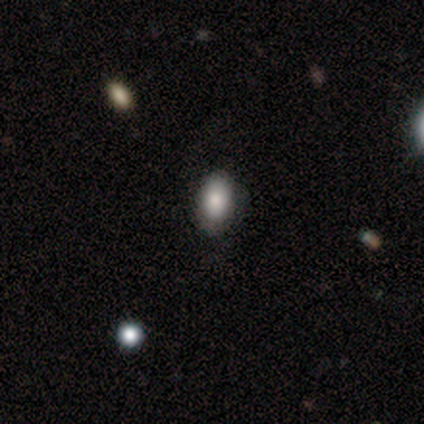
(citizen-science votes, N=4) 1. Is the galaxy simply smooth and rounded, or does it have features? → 100% smooth, 0% featured or disk, 0% star or artifact.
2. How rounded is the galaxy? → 100% in between, 0% round, 0% cigar-shaped.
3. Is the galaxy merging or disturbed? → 100% none, 0% minor disturbance, 0% major disturbance, 0% merger.